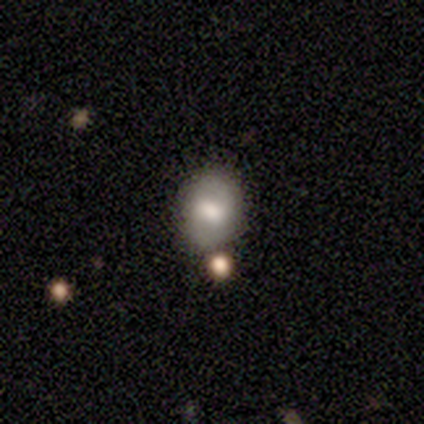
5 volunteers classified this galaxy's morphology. This is likely a smooth galaxy (60%). How rounded: likely in between (67%). Merging: clearly none (80%).